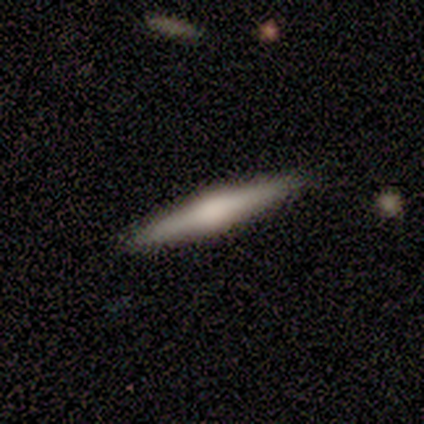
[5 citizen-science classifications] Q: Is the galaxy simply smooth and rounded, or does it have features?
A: smooth — 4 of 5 (80%).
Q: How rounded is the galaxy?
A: cigar-shaped — 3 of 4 (75%).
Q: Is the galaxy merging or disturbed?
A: none — 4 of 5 (80%).